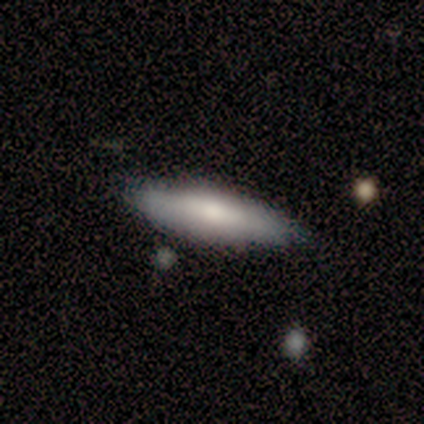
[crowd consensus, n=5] Volunteers were most divided on "how rounded" (2-way tie): in between: 50%, cigar-shaped: 50%, round: 0%. More confident: smooth or featured — smooth (80%); merging — none (80%).